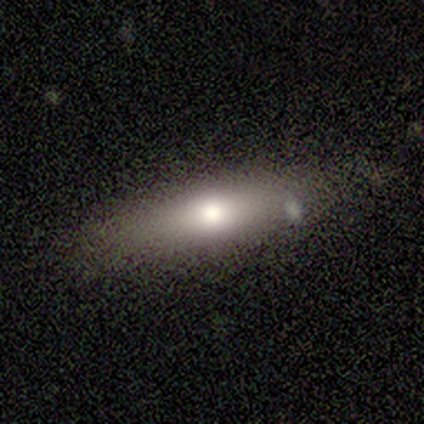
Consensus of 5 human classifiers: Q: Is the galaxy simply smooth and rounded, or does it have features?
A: smooth — 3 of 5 (60%).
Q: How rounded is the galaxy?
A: cigar-shaped — 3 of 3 (100%).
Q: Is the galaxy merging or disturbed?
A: none — 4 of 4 (100%).